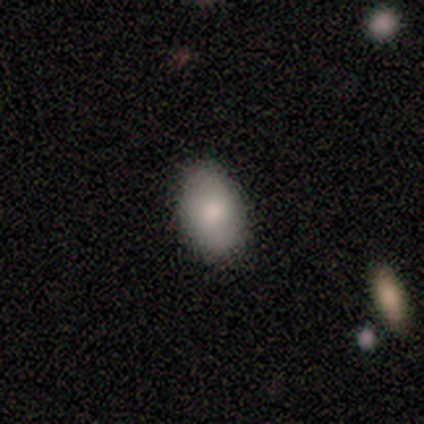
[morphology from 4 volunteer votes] Smooth or featured? smooth (75%)
How rounded? in between (67%)
Merging? none (100%)